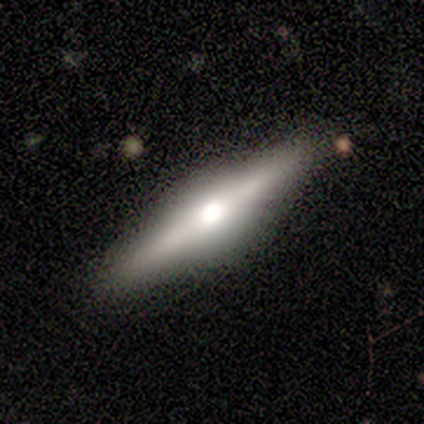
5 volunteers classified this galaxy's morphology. featured or disk 100%, smooth 0%, star or artifact 0%. Down the decision tree: edge-on disk — yes (100%); edge-on bulge — rounded (100%); merging — none (100%).